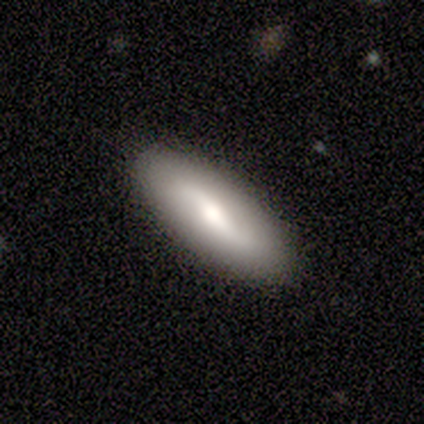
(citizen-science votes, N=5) smooth_or_featured: smooth (p=0.60) [alt: featured or disk p=0.40]
how_rounded: cigar-shaped (p=0.67) [alt: in between p=0.33]
merging: none (p=0.80) [alt: minor disturbance p=0.20]